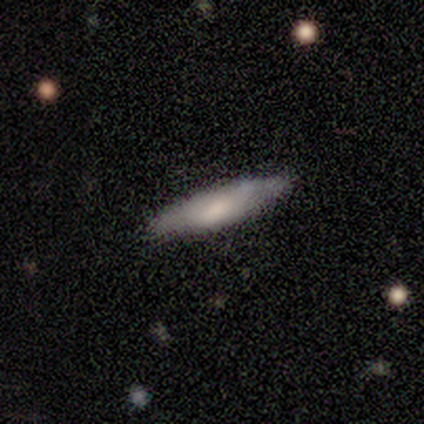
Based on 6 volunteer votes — Smooth or featured: smooth — 50% (featured or disk — 33%)
How rounded: cigar-shaped — 100%
Merging: none — 100%